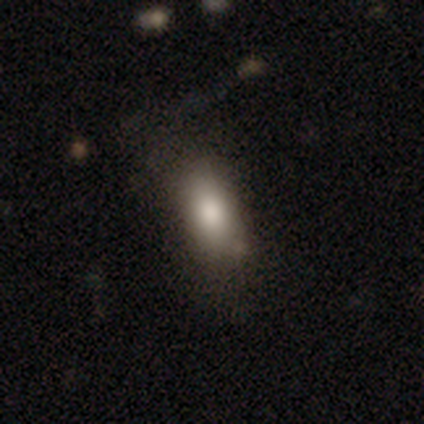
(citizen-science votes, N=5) Overall: smooth (100%). How rounded: in between (100%). Merging: none (60%; minor disturbance 40%).